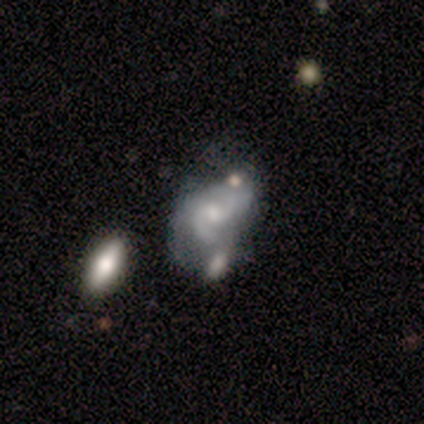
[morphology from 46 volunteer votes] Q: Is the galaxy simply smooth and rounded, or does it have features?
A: featured or disk — 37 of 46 (80%).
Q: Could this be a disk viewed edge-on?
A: no — 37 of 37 (100%).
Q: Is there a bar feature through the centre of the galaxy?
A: no — 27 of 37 (73%).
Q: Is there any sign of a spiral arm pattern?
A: yes — 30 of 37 (81%).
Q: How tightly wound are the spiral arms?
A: medium — 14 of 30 (47%).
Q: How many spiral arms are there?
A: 2 — 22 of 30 (73%).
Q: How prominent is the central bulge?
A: small — 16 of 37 (43%).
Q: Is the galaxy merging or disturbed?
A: minor disturbance — 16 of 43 (37%).